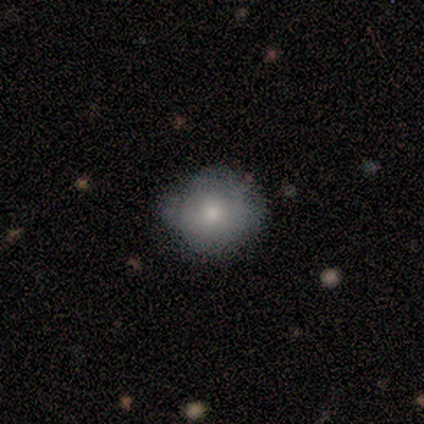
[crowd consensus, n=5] This is clearly a smooth galaxy (100%). How rounded: likely round (60%). Merging: likely none (60%).